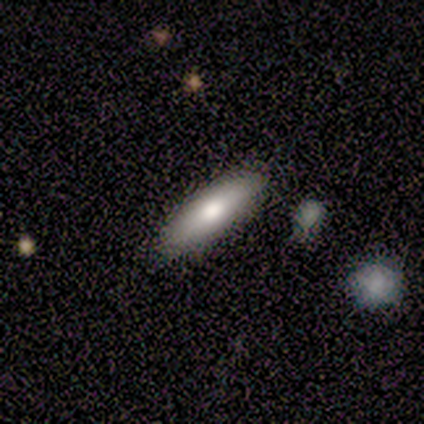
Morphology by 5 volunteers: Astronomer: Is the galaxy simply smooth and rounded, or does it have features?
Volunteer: smooth — 100%.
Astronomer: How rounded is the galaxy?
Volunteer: cigar-shaped — 80%.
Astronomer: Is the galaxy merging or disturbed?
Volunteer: none — 100%.